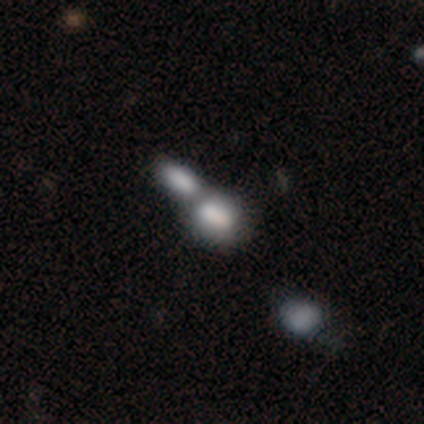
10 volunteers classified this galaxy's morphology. A smooth galaxy with no disk features (70%) that is in between round and cigar-shaped (86%). Merging: merger (75%).